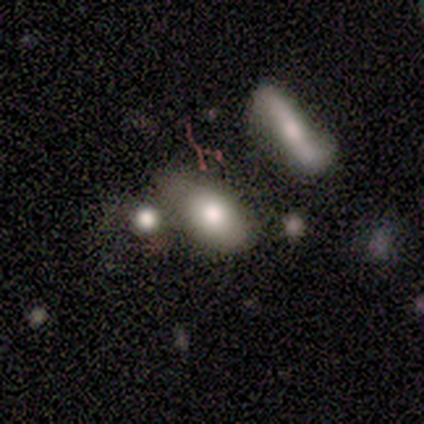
Smooth or featured?
  - smooth: 80% *
  - star or artifact: 20%
  - featured or disk: 0%
How rounded?
  - in between: 100% *
  - round: 0%
  - cigar-shaped: 0%
Merging?
  - none: 50% * (tied)
  - minor disturbance: 50% * (tied)
  - major disturbance: 0%
  - merger: 0%